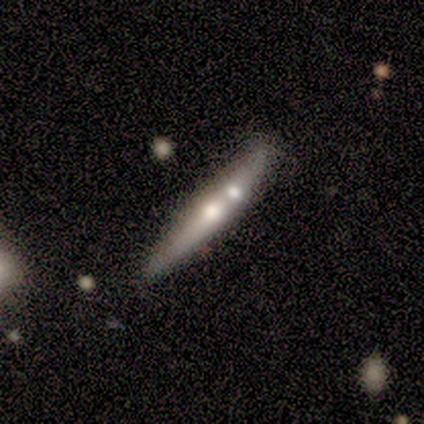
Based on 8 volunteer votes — Morphology: type=smooth (88%); roundness=cigar-shaped (86%); merging=none (50%).